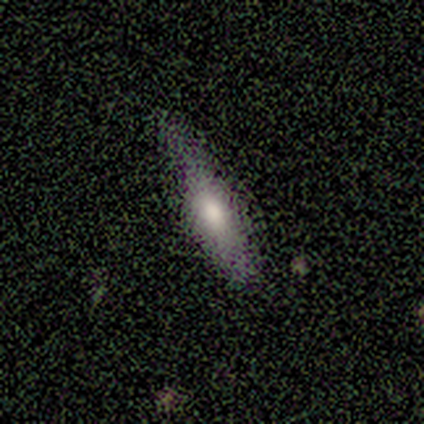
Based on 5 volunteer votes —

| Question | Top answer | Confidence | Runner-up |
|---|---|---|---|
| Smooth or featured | smooth | 60% | featured or disk (20%) |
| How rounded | cigar-shaped | 100% | — |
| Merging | none | 75% | minor disturbance (25%) |